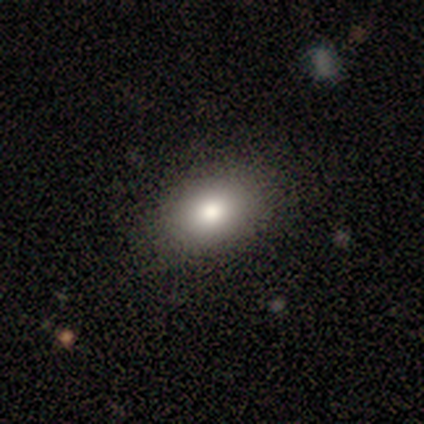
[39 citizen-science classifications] This is clearly a smooth galaxy (92%). How rounded: clearly in between (81%). Merging: likely none (61%).